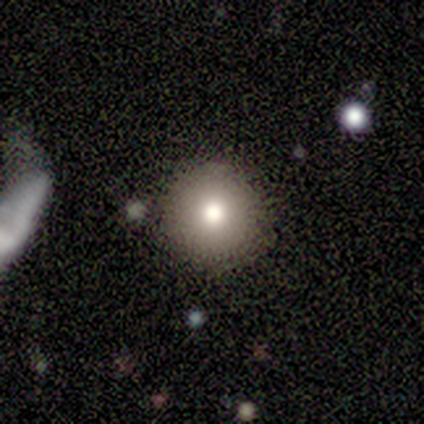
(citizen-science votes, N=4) Morphology: type=smooth (75%); roundness=round (100%); merging=none (100%).